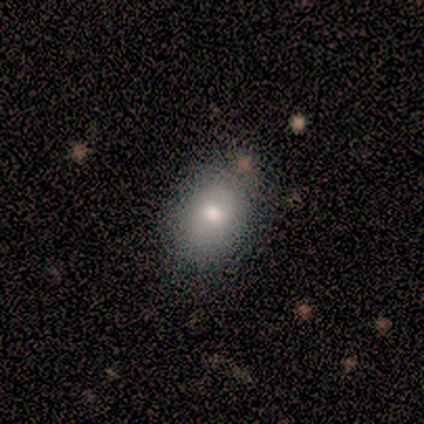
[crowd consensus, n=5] Smooth or featured? 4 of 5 (80%) said smooth. How rounded? 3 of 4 (75%) said in between. Merging? 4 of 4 (100%) said none.